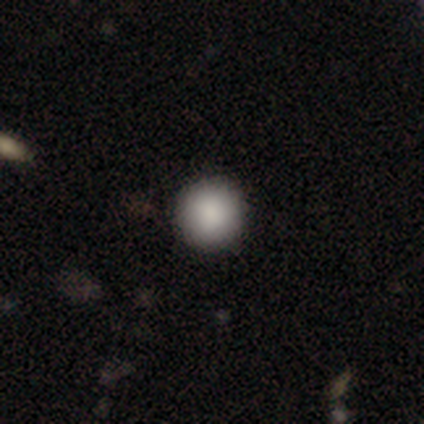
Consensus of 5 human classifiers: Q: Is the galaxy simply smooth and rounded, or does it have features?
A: smooth — 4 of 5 (80%).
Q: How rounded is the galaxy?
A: round — 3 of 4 (75%).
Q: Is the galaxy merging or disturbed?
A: none — 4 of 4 (100%).